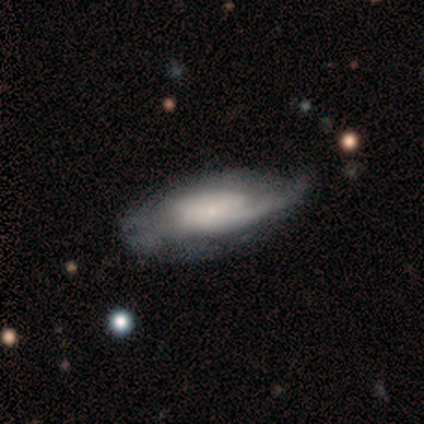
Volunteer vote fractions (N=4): Smooth or featured? 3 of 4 (75%) said smooth. How rounded? 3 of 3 (100%) said in between. Merging? 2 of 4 (50%) said minor disturbance.